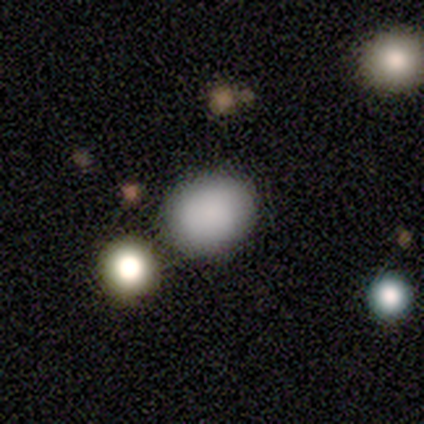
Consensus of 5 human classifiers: A smooth galaxy with no disk features (60%) that is in between round and cigar-shaped (67%). Merging: none (67%).